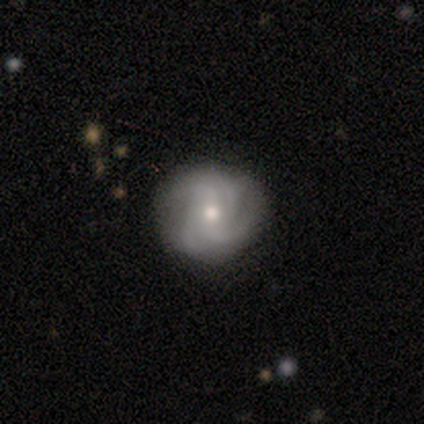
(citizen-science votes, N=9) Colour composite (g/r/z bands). It shows a featured or disk galaxy (89%) with no bar (50%), 2 (25%, tied with 3, 4 and can't tell) loose (50%) spiral arms (100%) and a moderate central bulge (88%). Merging: none (88%).